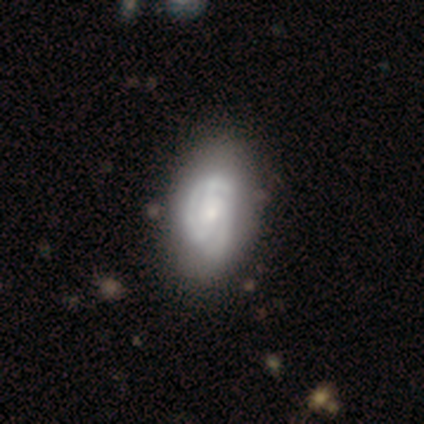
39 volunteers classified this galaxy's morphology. This appears to be a featured or disk galaxy (79%) with no bar (81%), 3 (43%) tight (63%) spiral arms (97%) and a small central bulge (48%). Merging: none (39%).